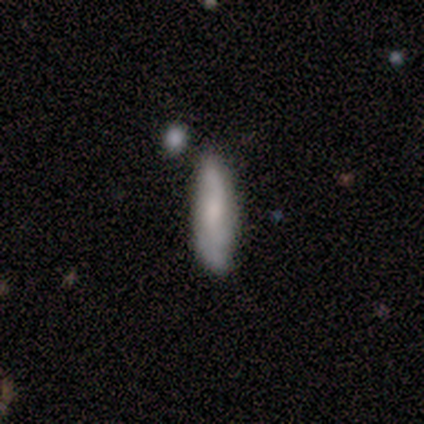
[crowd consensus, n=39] Smooth or featured: smooth — 54% (featured or disk — 41%)
How rounded: cigar-shaped — 62% (in between — 38%)
Merging: none — 65% (minor disturbance — 27%)